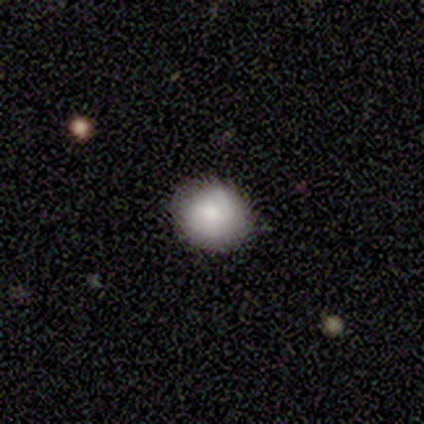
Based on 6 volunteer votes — This is likely a smooth galaxy (67%). How rounded: clearly round (100%). Merging: clearly none (83%).